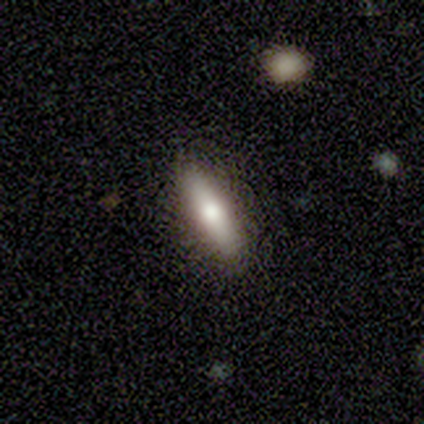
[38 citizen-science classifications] smooth-or-featured: smooth: 74% | featured or disk: 26% | star or artifact: 0%
  how-rounded: cigar-shaped: 64% | in between: 29% | round: 7%
  merging: none: 89% | minor disturbance: 11% | major disturbance: 0% | merger: 0%